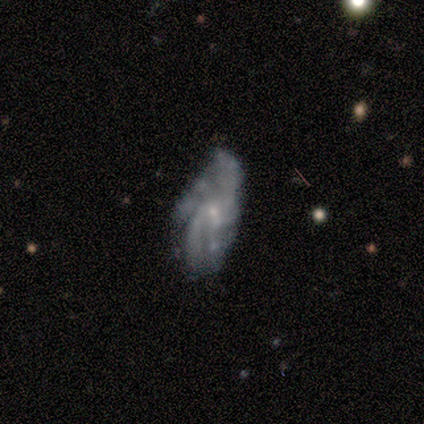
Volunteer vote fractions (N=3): A featured or disk galaxy (67%) with no bar (100%), 1 (50%, tied with more than 4) medium (50%, tied with loose) spiral arms (100%) and a small central bulge (100%). Merging: minor disturbance (67%).